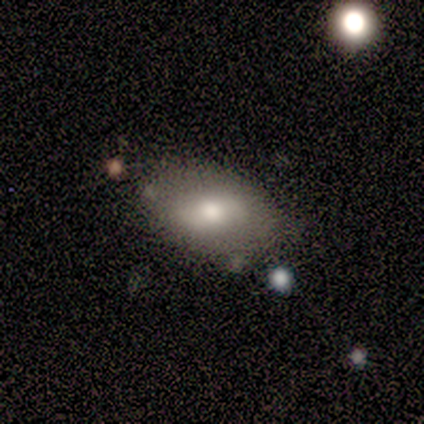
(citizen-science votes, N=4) smooth 75%, featured or disk 25%, star or artifact 0%. Down the decision tree: how rounded — in between (100%); merging — none (75%).